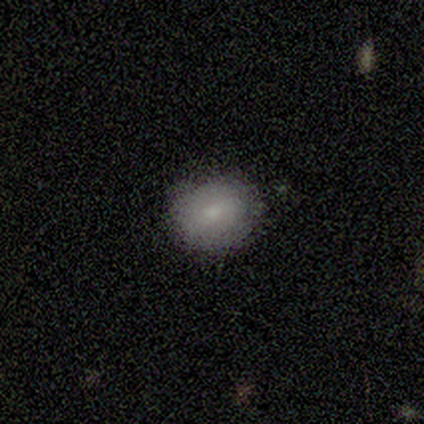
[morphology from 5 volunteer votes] smooth-or-featured: smooth: 100% | featured or disk: 0% | star or artifact: 0%
  how-rounded: round: 100% | in between: 0% | cigar-shaped: 0%
  merging: none: 100% | minor disturbance: 0% | major disturbance: 0% | merger: 0%